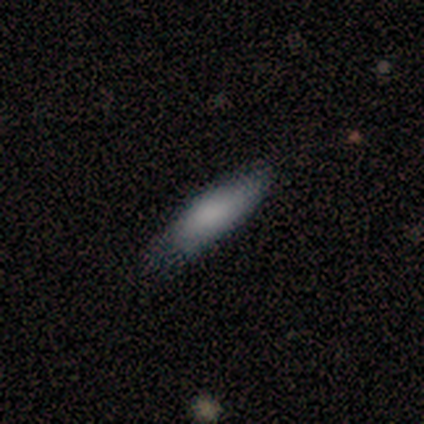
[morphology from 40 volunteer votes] This appears to be a smooth galaxy with no disk features (78%) that is cigar-shaped (68%). Merging: none (79%).